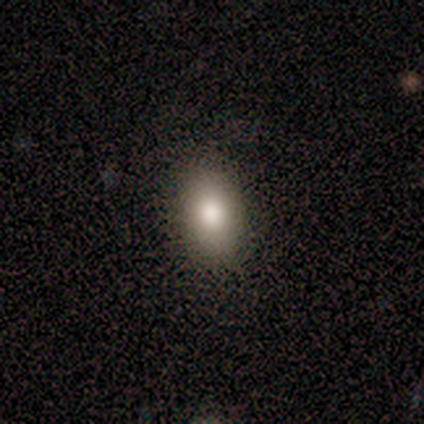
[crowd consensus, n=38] Morphology: type=smooth (79%); roundness=in between (90%); merging=none (91%).